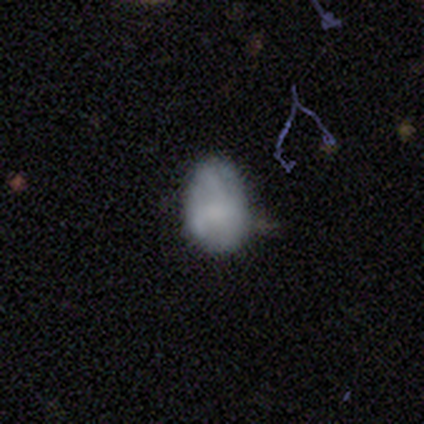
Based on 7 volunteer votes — Volunteers were most divided on "merging" (2-way tie): none: 50%, minor disturbance: 50%, major disturbance: 0%, merger: 0%. More confident: smooth or featured — smooth (86%); how rounded — in between (83%).